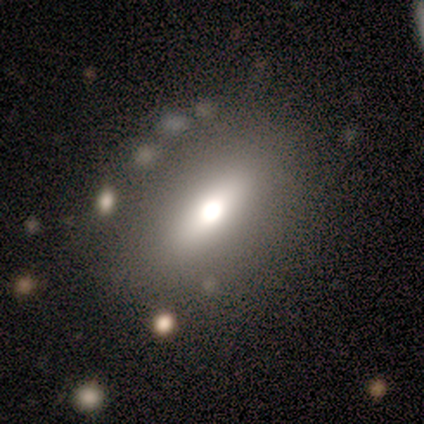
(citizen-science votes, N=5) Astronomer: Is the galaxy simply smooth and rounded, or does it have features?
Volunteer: smooth — 60% (runner-up: featured or disk, 40%).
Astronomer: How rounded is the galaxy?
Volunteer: in between — 100%.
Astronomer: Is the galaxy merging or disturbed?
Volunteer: none — 40% (runner-up: minor disturbance, 20%).